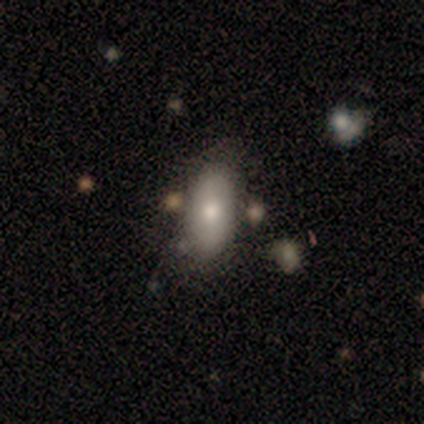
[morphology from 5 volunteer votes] A smooth galaxy with no disk features (80%) that is in between round and cigar-shaped (100%).

Vote fractions:
- Smooth or featured? smooth: 80% / star or artifact: 20% / featured or disk: 0%
- How rounded? in between: 100% / round: 0% / cigar-shaped: 0%
- Merging? none: 100% / minor disturbance: 0% / major disturbance: 0% / merger: 0%